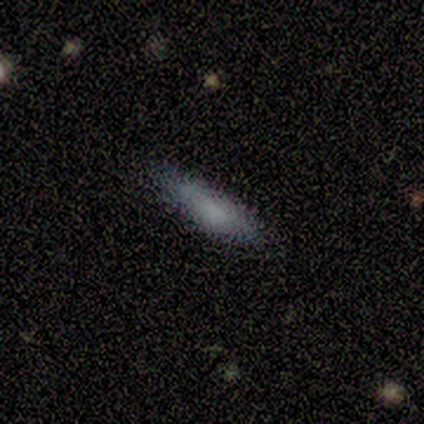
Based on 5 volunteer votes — Smooth or featured?
  - smooth: 100% *
  - featured or disk: 0%
  - star or artifact: 0%
How rounded?
  - cigar-shaped: 100% *
  - round: 0%
  - in between: 0%
Merging?
  - none: 60% *
  - minor disturbance: 40%
  - major disturbance: 0%
  - merger: 0%